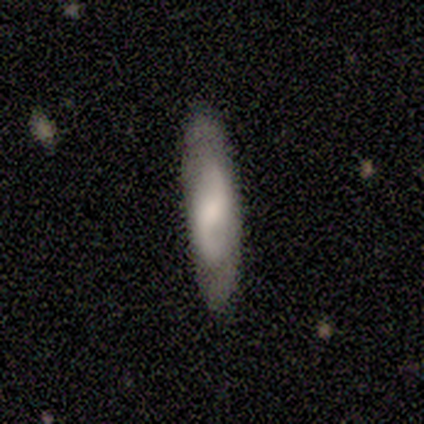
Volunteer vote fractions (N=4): smooth-or-featured: smooth: 50% (tied) | featured or disk: 50% (tied) | star or artifact: 0%
  how-rounded: in between: 50% (tied) | cigar-shaped: 50% (tied) | round: 0%
  merging: none: 100% | minor disturbance: 0% | major disturbance: 0% | merger: 0%